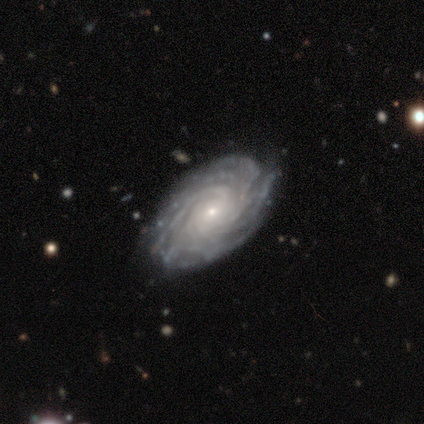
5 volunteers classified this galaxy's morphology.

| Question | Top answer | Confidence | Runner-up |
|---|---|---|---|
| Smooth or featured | featured or disk | 100% | — |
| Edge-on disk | no | 80% | yes (20%) |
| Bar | no | 75% | weak (25%) |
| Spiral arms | yes | 100% | — |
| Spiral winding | tight | 100% | — |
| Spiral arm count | more than 4 | 100% | — |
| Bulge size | small | 75% | moderate (25%) |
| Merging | none | 80% | minor disturbance (20%) |